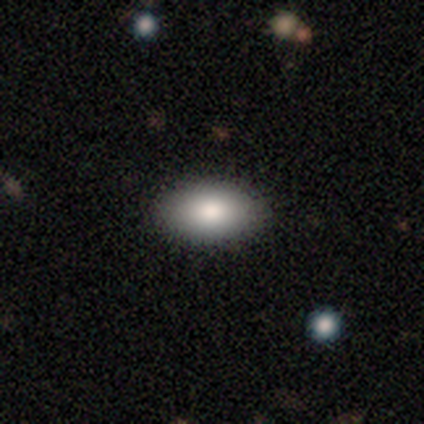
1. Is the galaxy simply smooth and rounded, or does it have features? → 100% smooth, 0% featured or disk, 0% star or artifact.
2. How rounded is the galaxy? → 100% in between, 0% round, 0% cigar-shaped.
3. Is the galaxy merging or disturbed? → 100% none, 0% minor disturbance, 0% major disturbance, 0% merger.